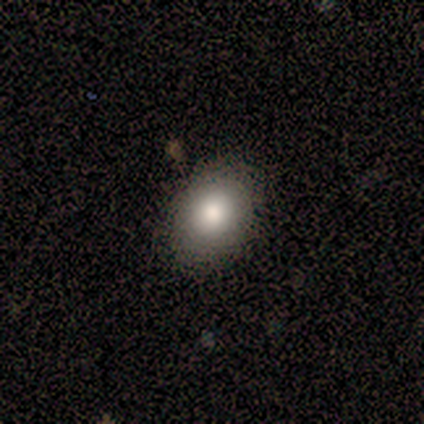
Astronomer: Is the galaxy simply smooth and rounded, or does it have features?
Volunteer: smooth — 100%.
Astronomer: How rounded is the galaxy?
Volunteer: in between — 60% (runner-up: round, 40%).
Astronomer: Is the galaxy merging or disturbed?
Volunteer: none — 100%.